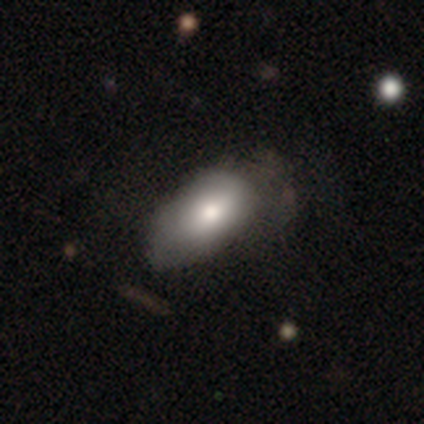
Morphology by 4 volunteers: smooth_or_featured: smooth (p=1.00)
how_rounded: in between (p=1.00)
merging: none (p=0.50) [alt: minor disturbance p=0.25]